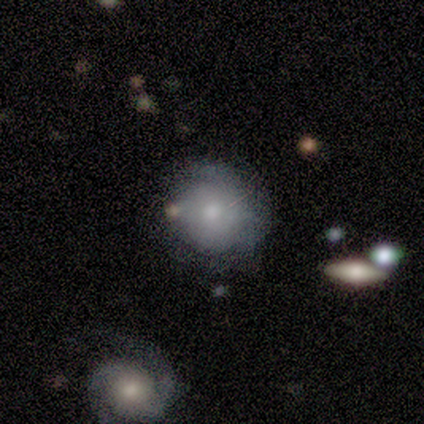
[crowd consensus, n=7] This appears to be a smooth galaxy with no disk features (57%) that is round (75%). Merging: none (57%).